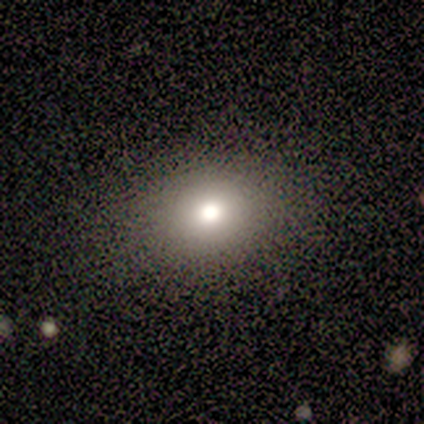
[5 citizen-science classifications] This is clearly a smooth galaxy (80%). How rounded: likely round (75%). Merging: possibly none (50%, tied with minor disturbance).